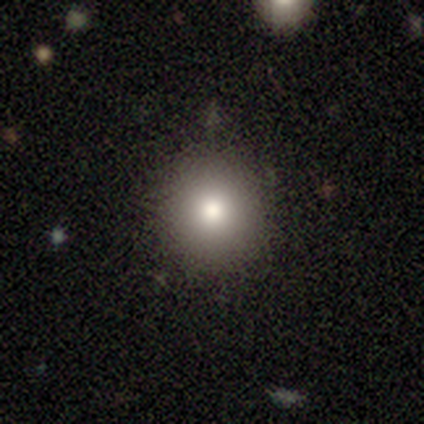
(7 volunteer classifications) Smooth or featured? 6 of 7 (86%) said smooth. How rounded? 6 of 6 (100%) said round. Merging? 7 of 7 (100%) said none.